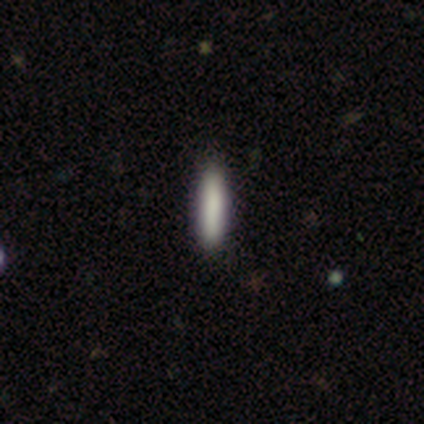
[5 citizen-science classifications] Overall: smooth (100%). How rounded: cigar-shaped (80%). Merging: none (80%).